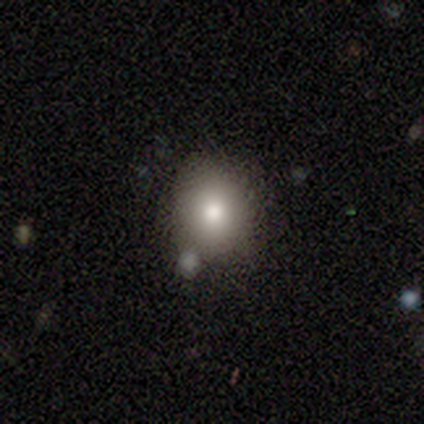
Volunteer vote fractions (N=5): Smooth or featured? 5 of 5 (100%) said smooth. How rounded? 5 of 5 (100%) said round. Merging? 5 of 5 (100%) said none.